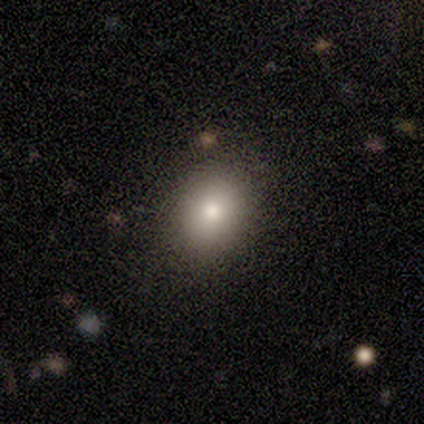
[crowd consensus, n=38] Q: Smooth or featured?
A: smooth (82%); runner-up: star or artifact (11%)
Q: How rounded?
A: in between (55%); runner-up: round (45%)
Q: Merging?
A: none (85%); runner-up: minor disturbance (15%)